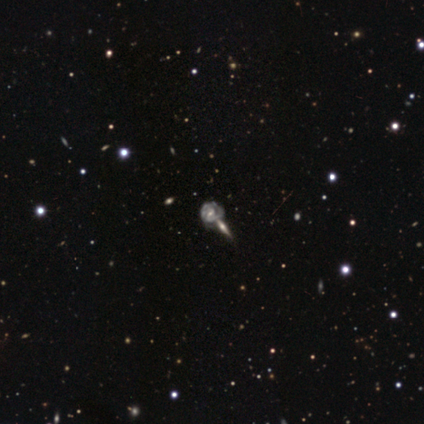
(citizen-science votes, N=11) smooth-or-featured: featured or disk: 82% | star or artifact: 18% | smooth: 0%
  disk-edge-on: no: 100% | yes: 0%
    bar: no: 56% | weak: 44% | strong: 0%
    has-spiral-arms: yes: 100% | no: 0%
      spiral-winding: tight: 44% | medium: 33% | loose: 22%
      spiral-arm-count: 2: 67% | 1: 11% | 3: 11% | can't tell: 11% | 4: 0% | more than 4: 0%
    bulge-size: moderate: 67% | small: 33% | dominant: 0% | large: 0% | none: 0%
  merging: none: 44% (tied) | merger: 44% (tied) | minor disturbance: 11% | major disturbance: 0%